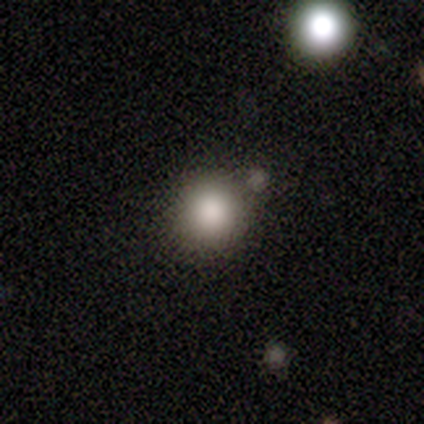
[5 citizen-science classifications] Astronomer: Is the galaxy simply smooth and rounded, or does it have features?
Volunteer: smooth — 100%.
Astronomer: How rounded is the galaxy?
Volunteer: round — 100%.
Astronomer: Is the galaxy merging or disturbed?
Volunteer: none — 80%.